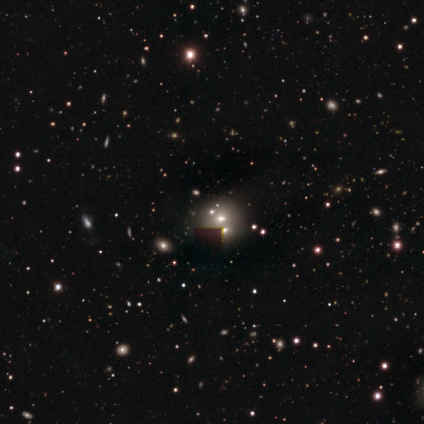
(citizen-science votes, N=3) smooth_or_featured: star or artifact (p=0.67) [alt: smooth p=0.33]